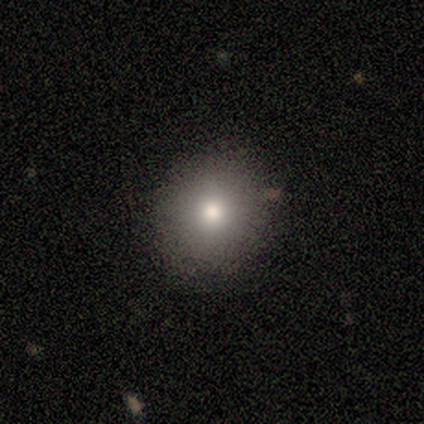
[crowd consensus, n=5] Smooth or featured: smooth — 80% (star or artifact — 20%)
How rounded: round — 75% (in between — 25%)
Merging: none — 75% (minor disturbance — 25%)